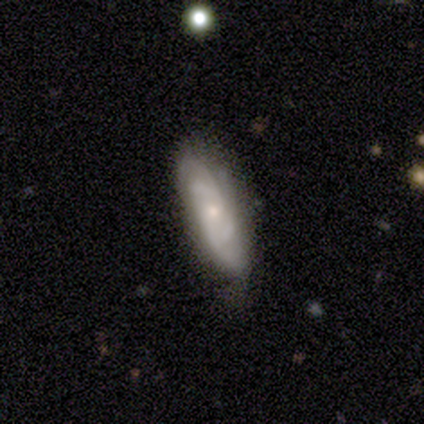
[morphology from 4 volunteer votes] Volunteers were most divided on "smooth or featured" (2-way tie): smooth: 50%, featured or disk: 50%, star or artifact: 0%; "how rounded" (2-way tie): in between: 50%, cigar-shaped: 50%, round: 0%; "merging" (2-way tie): none: 50%, minor disturbance: 50%, major disturbance: 0%, merger: 0%.